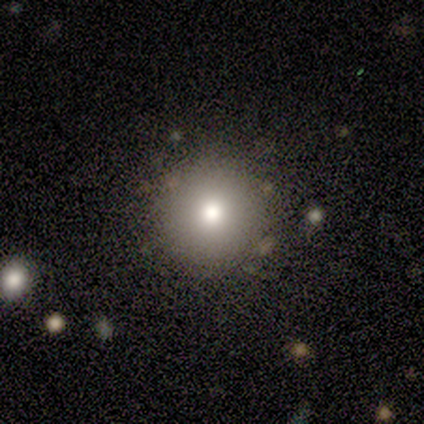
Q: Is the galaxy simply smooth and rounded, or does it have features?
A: smooth — 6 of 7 (86%).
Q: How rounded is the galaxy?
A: round — 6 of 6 (100%).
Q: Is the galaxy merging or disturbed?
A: none — 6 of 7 (86%).